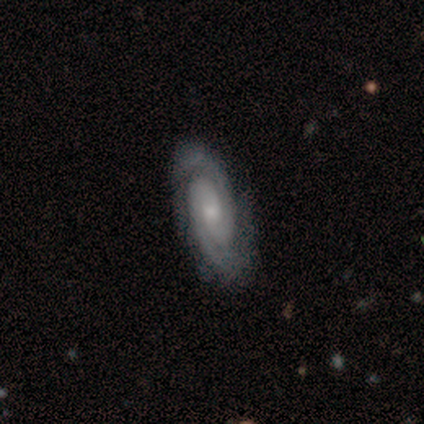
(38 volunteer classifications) Smooth or featured? 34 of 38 (89%) said featured or disk. Edge-on disk? 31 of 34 (91%) said no. Bar? 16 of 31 (52%) said no. Spiral arms? 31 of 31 (100%) said yes. Spiral winding? 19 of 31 (61%) said tight. Spiral arm count? 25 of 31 (81%) said 2. Bulge size? 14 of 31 (45%) said moderate. Merging? 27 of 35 (77%) said none.